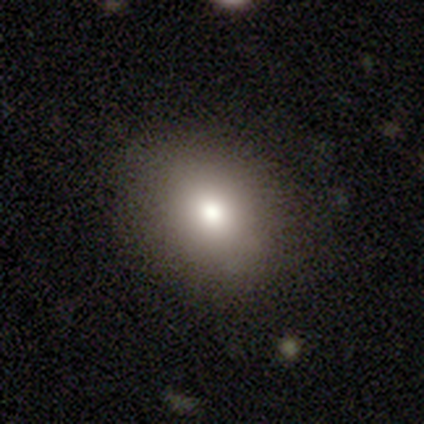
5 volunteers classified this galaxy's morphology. Overall: smooth (60%; featured or disk 20%). How rounded: round (67%; in between 33%). Merging: none (100%).